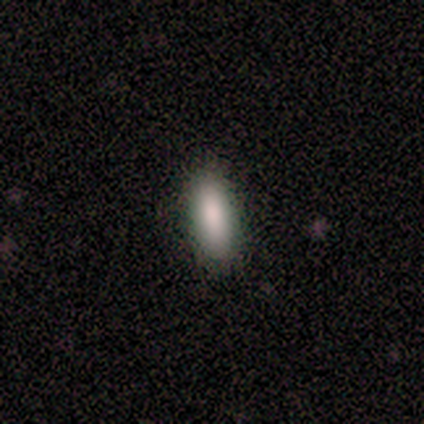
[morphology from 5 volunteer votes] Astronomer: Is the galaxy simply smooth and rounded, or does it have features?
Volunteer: smooth — 100%.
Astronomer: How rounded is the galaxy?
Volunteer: in between — 60% (runner-up: cigar-shaped, 40%).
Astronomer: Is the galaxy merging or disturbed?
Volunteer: none — 80%.